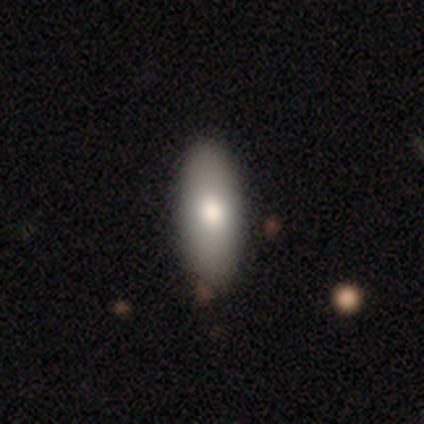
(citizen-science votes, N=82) Smooth or featured: smooth — 79% (featured or disk — 15%)
How rounded: in between — 63% (cigar-shaped — 37%)
Merging: none — 81% (minor disturbance — 18%)